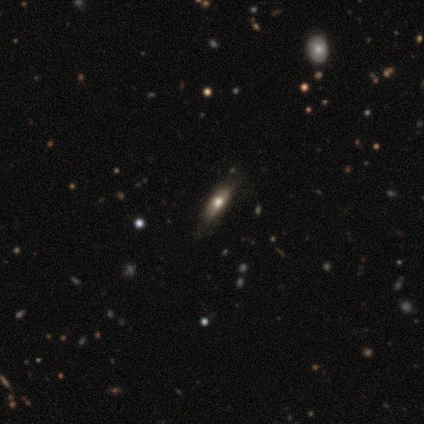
This appears to be a smooth galaxy with no disk features (60%) that is in between round and cigar-shaped (100%). Merging: none (80%).